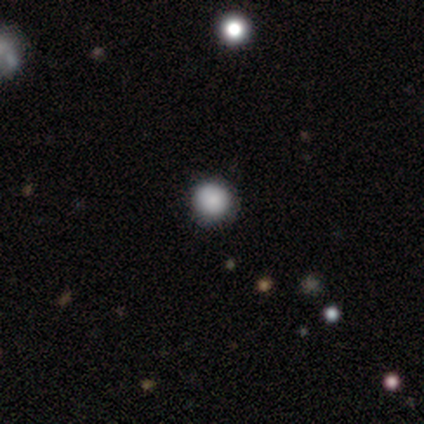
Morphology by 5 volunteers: Overall: smooth (60%; star or artifact 40%). How rounded: round (100%). Merging: none (100%).